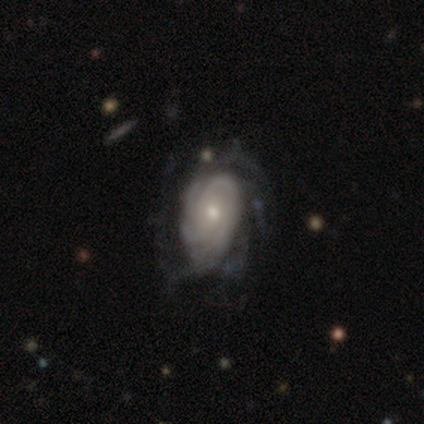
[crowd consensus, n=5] Smooth or featured?
  - featured or disk: 100% *
  - smooth: 0%
  - star or artifact: 0%
Edge-on disk?
  - no: 100% *
  - yes: 0%
Bar?
  - no: 60% *
  - weak: 40%
  - strong: 0%
Spiral arms?
  - yes: 100% *
  - no: 0%
Spiral winding?
  - tight: 80% *
  - medium: 20%
  - loose: 0%
Spiral arm count?
  - can't tell: 60% *
  - 3: 20%
  - more than 4: 20%
  - 1: 0%
  - 2: 0%
  - 4: 0%
Bulge size?
  - small: 80% *
  - moderate: 20%
  - dominant: 0%
  - large: 0%
  - none: 0%
Merging?
  - none: 80% *
  - major disturbance: 20%
  - minor disturbance: 0%
  - merger: 0%